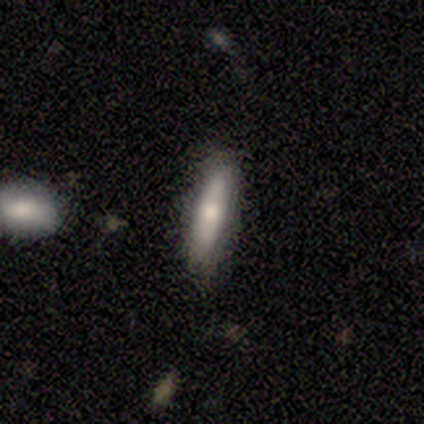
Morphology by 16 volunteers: smooth-or-featured: smooth: 75% | featured or disk: 25% | star or artifact: 0%
  how-rounded: cigar-shaped: 67% | in between: 25% | round: 8%
  merging: none: 75% | minor disturbance: 25% | major disturbance: 0% | merger: 0%